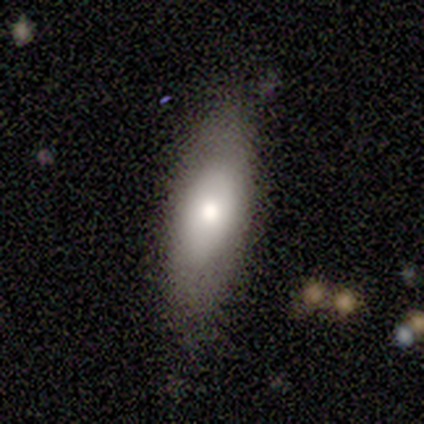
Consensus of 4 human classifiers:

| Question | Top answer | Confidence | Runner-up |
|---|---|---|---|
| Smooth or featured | smooth | 50% | tied: featured or disk (50%) |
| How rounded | in between | 100% | — |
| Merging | none | 100% | — |